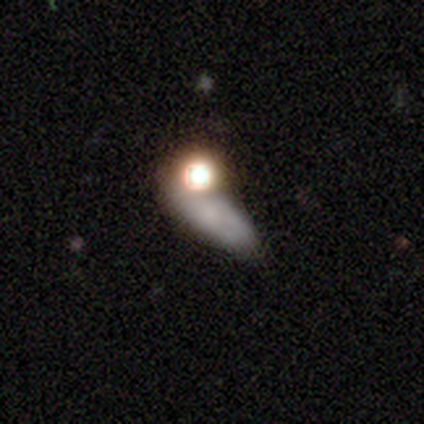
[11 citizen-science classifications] Smooth or featured? 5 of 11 (45%) said smooth. How rounded? 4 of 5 (80%) said in between. Merging? 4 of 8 (50%) said none.